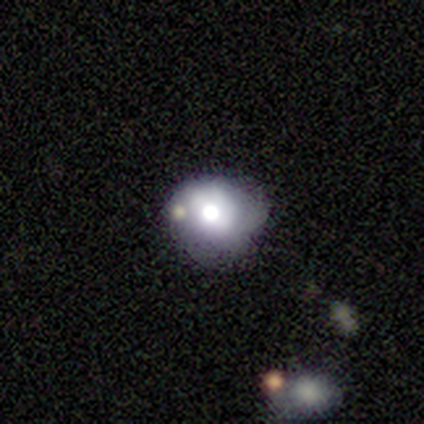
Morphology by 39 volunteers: Volunteers were most divided on "bulge size": moderate: 47%, large: 41%, dominant: 12%, small: 0%, none: 0%. Remaining: edge-on disk — no (94%); bar — no (76%); spiral arms — no (71%); merging — none (55%); smooth or featured — featured or disk (46%).